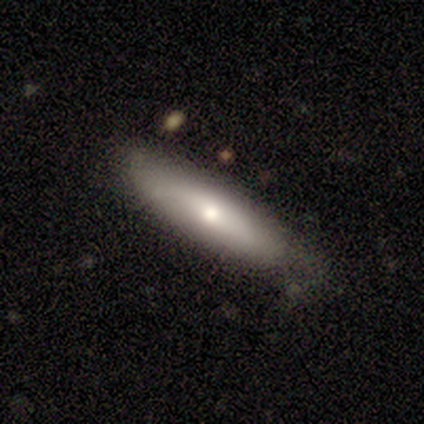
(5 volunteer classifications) Morphology: type=smooth (60%); roundness=in between (67%); merging=none (80%).